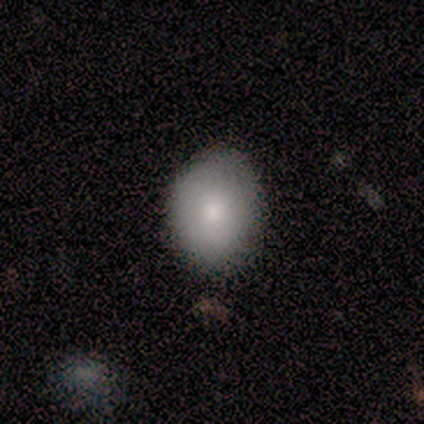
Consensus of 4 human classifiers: Morphology: type=smooth (75%); roundness=in between (100%); merging=none (100%).